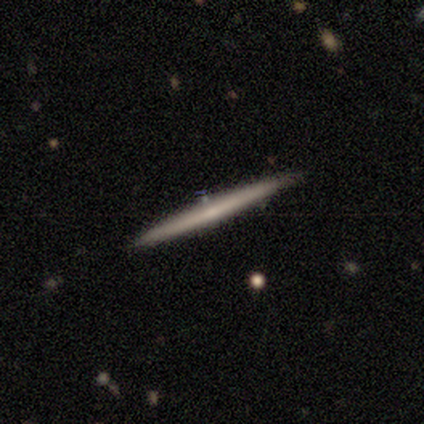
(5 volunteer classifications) Smooth or featured? 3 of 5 (60%) said smooth. How rounded? 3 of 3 (100%) said cigar-shaped. Merging? 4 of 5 (80%) said none.